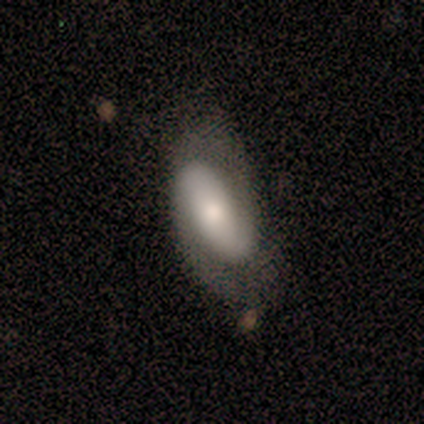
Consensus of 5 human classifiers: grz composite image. It shows a featured or disk galaxy (100%) with no bar (60%), 2 (100%) medium (40%, tied with loose) spiral arms (100%) and a moderate central bulge (40%, tied with small). Merging: none (80%).